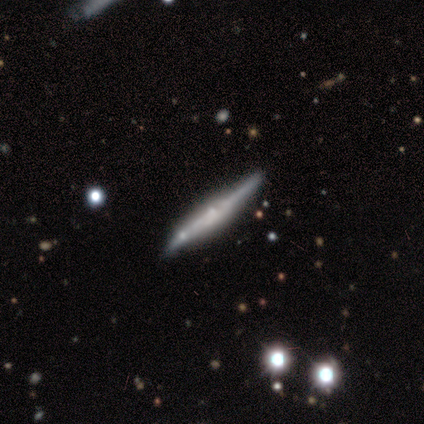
Morphology: type=featured or disk (50%); edge-on=yes (100%); edge-on bulge=none (80%); merging=none (56%).